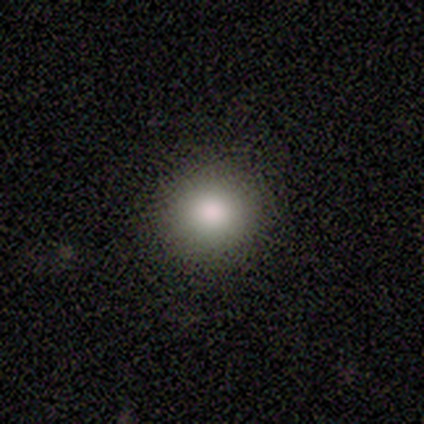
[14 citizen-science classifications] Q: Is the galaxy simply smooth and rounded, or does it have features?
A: smooth — 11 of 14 (79%).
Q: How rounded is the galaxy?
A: round — 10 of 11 (91%).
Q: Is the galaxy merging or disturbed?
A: none — 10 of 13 (77%).